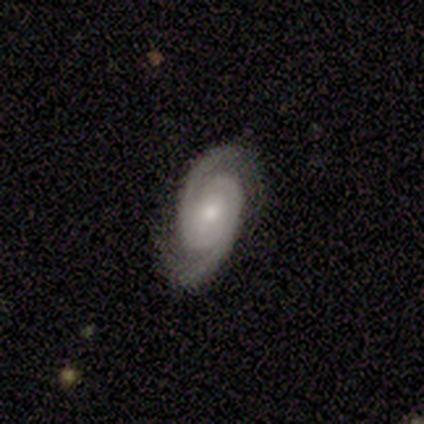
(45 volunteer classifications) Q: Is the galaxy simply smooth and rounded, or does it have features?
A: featured or disk — 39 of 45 (87%).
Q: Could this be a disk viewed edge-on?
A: no — 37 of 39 (95%).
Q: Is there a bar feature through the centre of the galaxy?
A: no — 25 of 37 (68%).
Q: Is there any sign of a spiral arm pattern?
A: yes — 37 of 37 (100%).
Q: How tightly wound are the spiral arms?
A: tight — 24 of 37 (65%).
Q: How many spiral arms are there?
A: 2 — 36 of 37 (97%).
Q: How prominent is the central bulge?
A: moderate — 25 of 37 (68%).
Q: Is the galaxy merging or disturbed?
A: none — 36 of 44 (82%).